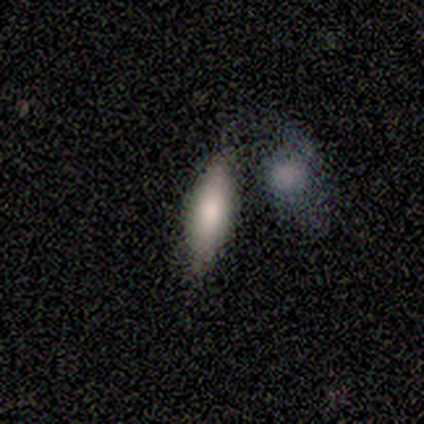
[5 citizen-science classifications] Smooth or featured?
  - smooth: 60% *
  - featured or disk: 40%
  - star or artifact: 0%
How rounded?
  - cigar-shaped: 67% *
  - in between: 33%
  - round: 0%
Merging?
  - none: 60% *
  - minor disturbance: 40%
  - major disturbance: 0%
  - merger: 0%